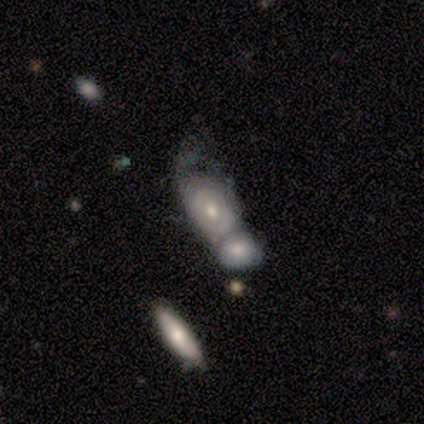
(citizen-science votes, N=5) smooth_or_featured: smooth (p=0.60) [alt: featured or disk p=0.40]
how_rounded: in between (p=1.00)
merging: merger (p=1.00)